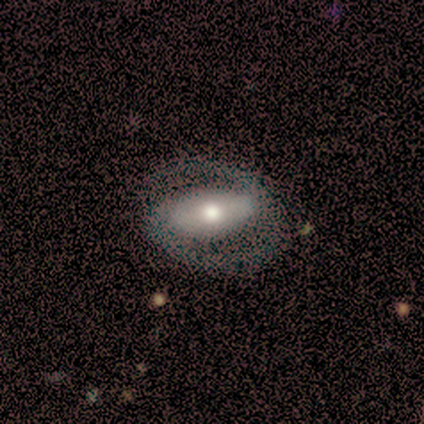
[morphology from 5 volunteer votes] featured or disk 100%, smooth 0%, star or artifact 0%. Down the decision tree: edge-on disk — no (100%); bar — strong (40%, tied with weak); spiral arms — yes (100%); spiral arm count — 2 (80%); spiral winding — medium (100%); bulge size — moderate (80%); merging — none (80%).